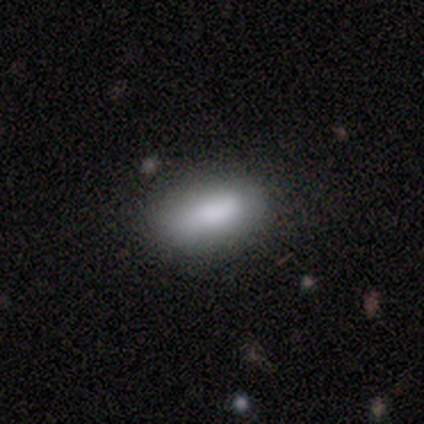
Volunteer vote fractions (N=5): Smooth or featured? 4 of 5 (80%) said smooth. How rounded? 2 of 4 (50%, tied with cigar-shaped) said in between. Merging? 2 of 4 (50%, tied with minor disturbance) said none.